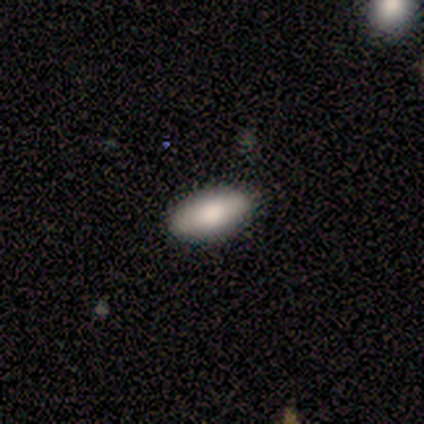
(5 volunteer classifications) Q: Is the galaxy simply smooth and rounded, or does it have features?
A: smooth — 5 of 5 (100%).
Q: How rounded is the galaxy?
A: in between — 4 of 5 (80%).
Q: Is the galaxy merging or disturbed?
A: none — 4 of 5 (80%).